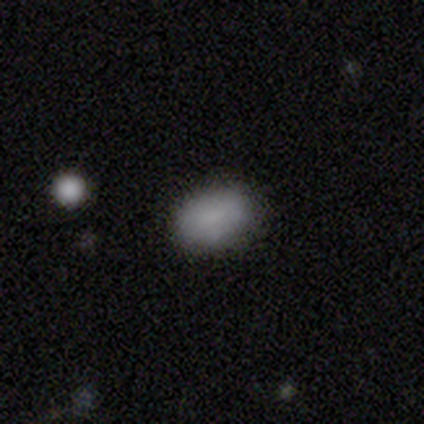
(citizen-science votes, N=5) This is clearly a smooth galaxy (80%). How rounded: clearly in between (100%). Merging: likely none (60%).